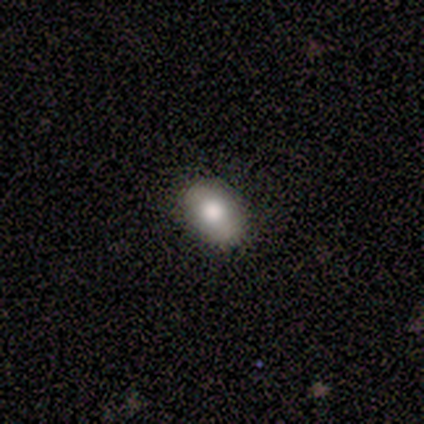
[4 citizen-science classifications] Q: Smooth or featured?
A: smooth (75%); runner-up: featured or disk (25%)
Q: How rounded?
A: in between (67%); runner-up: round (33%)
Q: Merging?
A: none (100%)